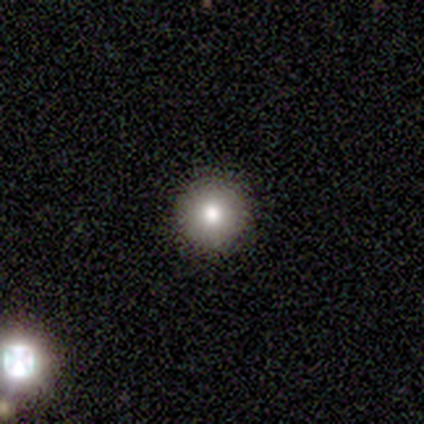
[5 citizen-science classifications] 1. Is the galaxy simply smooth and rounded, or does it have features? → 80% smooth, 20% featured or disk, 0% star or artifact.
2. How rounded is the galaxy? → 100% round, 0% in between, 0% cigar-shaped.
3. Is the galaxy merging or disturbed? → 80% none, 20% minor disturbance, 0% major disturbance, 0% merger.